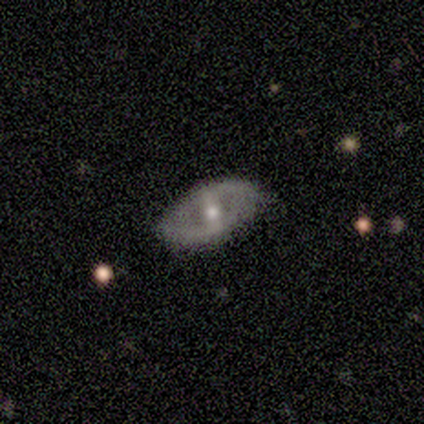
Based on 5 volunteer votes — Q: Smooth or featured?
A: featured or disk (60%); runner-up: smooth (40%)
Q: Edge-on disk?
A: no (67%); runner-up: yes (33%)
Q: Bar?
A: strong (50%); tied with: weak (50%)
Q: Spiral arms?
A: no (100%)
Q: Bulge size?
A: moderate (50%); tied with: small (50%)
Q: Merging?
A: none (100%)